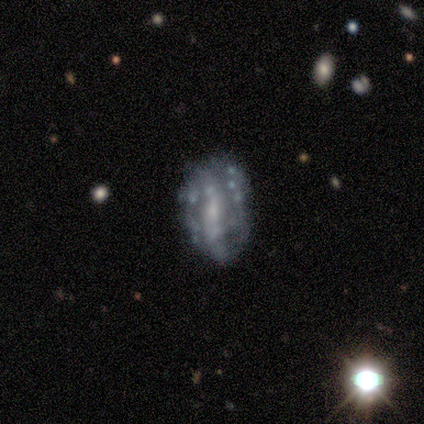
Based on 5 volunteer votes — A featured or disk galaxy (60%) with no bar (67%), no spiral arms (100%) and a moderate central bulge (33%, tied with small and none).

Vote fractions:
- Smooth or featured? featured or disk: 60% / smooth: 20% / star or artifact: 20%
- Edge-on disk? no: 100% / yes: 0%
- Bar? no: 67% / weak: 33% / strong: 0%
- Spiral arms? no: 100% / yes: 0%
- Bulge size? moderate: 33% (tied) / small: 33% (tied) / none: 33% (tied) / dominant: 0% / large: 0%
- Merging? none: 100% / minor disturbance: 0% / major disturbance: 0% / merger: 0%